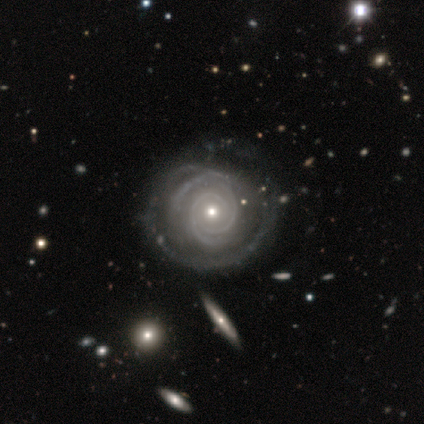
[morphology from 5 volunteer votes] Smooth or featured: featured or disk — 100%
Edge-on disk: no — 100%
Bar: no — 60% (weak — 40%)
Spiral arms: yes — 80% (no — 20%)
Spiral winding: tight — 75% (medium — 25%)
Spiral arm count: 2 — 50% (4 — 25%)
Bulge size: moderate — 60% (small — 40%)
Merging: none — 40% (tied with minor disturbance — 40%)